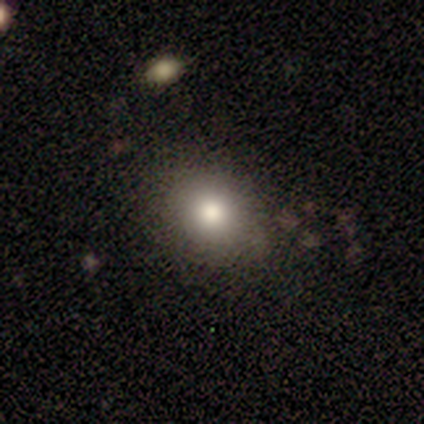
Overall: smooth (80%). How rounded: round (50%, tied with in between). Merging: none (80%).